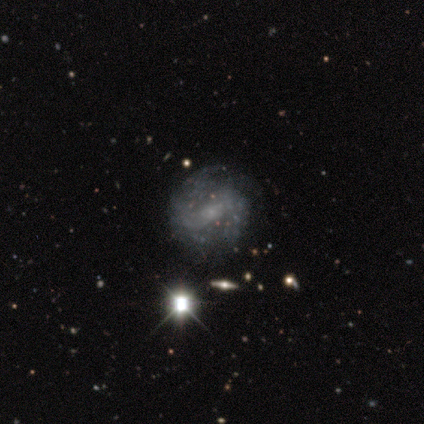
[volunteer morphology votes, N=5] Smooth or featured: featured or disk — 60% (star or artifact — 40%)
Edge-on disk: no — 100%
Bar: no — 67% (weak — 33%)
Spiral arms: yes — 100%
Spiral winding: medium — 67% (tight — 33%)
Spiral arm count: can't tell — 67% (2 — 33%)
Bulge size: small — 67% (none — 33%)
Merging: none — 100%